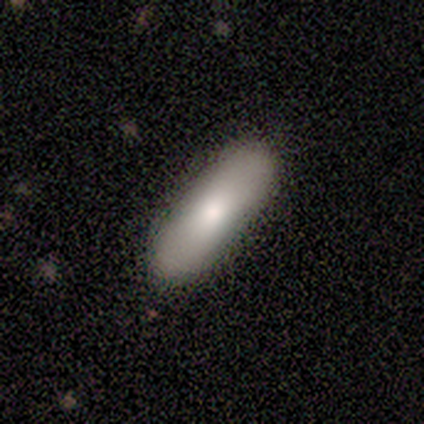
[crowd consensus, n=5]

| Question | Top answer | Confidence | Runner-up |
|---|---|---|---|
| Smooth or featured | smooth | 100% | — |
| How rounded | cigar-shaped | 80% | in between (20%) |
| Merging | none | 100% | — |